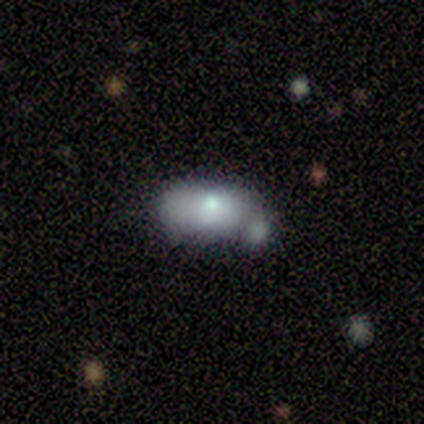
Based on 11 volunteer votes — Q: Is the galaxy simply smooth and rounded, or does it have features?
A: smooth — 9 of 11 (82%).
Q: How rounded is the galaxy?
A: in between — 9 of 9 (100%).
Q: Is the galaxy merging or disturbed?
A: minor disturbance — 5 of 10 (50%).